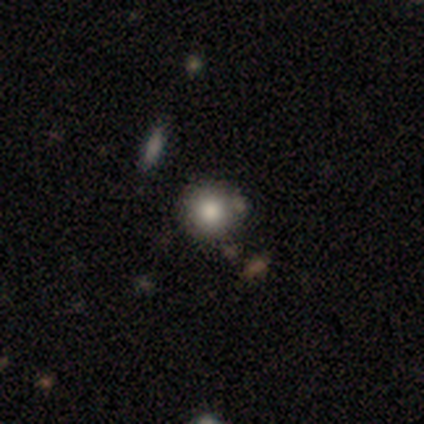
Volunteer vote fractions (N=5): smooth_or_featured: smooth (p=0.80) [alt: star or artifact p=0.20]
how_rounded: round (p=1.00)
merging: none (p=0.50) [tied with: merger p=0.50]